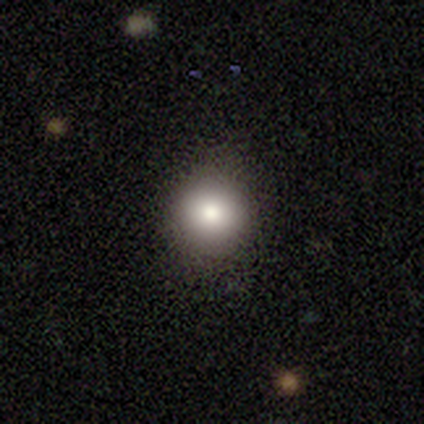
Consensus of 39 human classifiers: This appears to be a smooth galaxy with no disk features (87%) that is round (91%). Merging: none (92%).